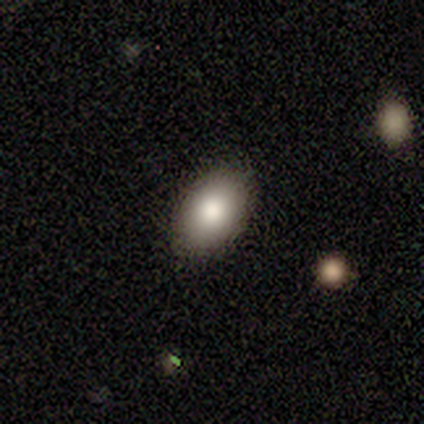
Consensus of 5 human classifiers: Smooth or featured? 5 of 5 (100%) said smooth. How rounded? 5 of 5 (100%) said in between. Merging? 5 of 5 (100%) said none.